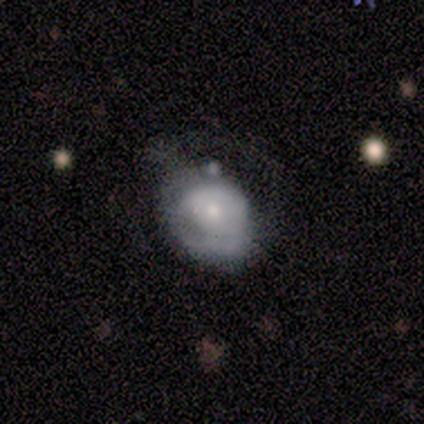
Smooth or featured? 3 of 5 (60%) said smooth. How rounded? 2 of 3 (67%) said in between. Merging? 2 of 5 (40%, tied with minor disturbance) said none.